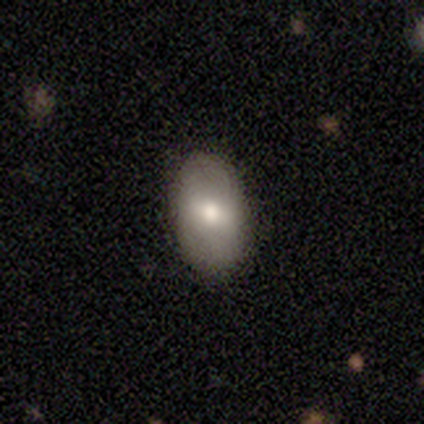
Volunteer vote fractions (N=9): Smooth or featured: smooth — 67% (featured or disk — 33%)
How rounded: in between — 100%
Merging: none — 78% (minor disturbance — 22%)